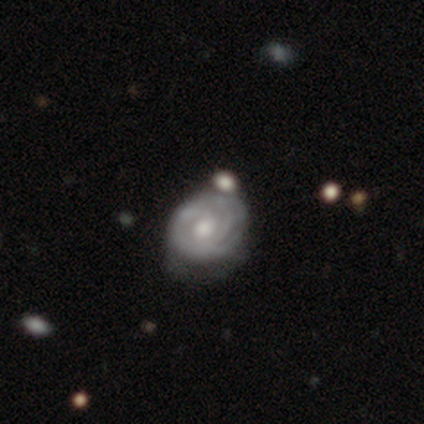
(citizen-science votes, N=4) Smooth or featured? featured or disk (75%)
Edge-on disk? no (100%)
Bar? no (67%)
Spiral arms? yes (100%)
Spiral winding? tight (100%)
Spiral arm count? can't tell (67%)
Bulge size? small (67%)
Merging? none (67%)